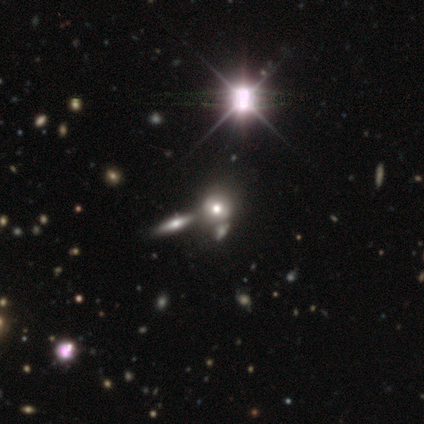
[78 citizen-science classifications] Smooth or featured? smooth (53%)
How rounded? round (90%)
Merging? merger (38%)